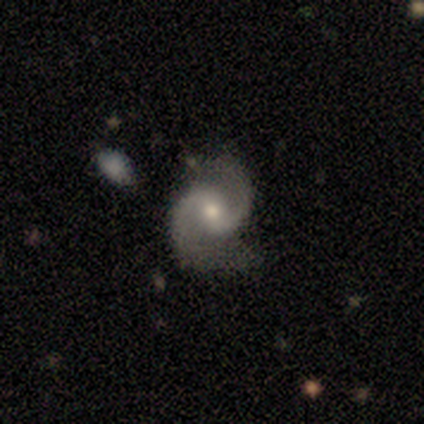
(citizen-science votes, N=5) Smooth or featured? featured or disk (100%)
Edge-on disk? no (100%)
Bar? no (80%)
Spiral arms? yes (80%)
Spiral winding? medium (50%, tied with loose)
Spiral arm count? 2 (100%)
Bulge size? small (100%)
Merging? none (40%, tied with merger)